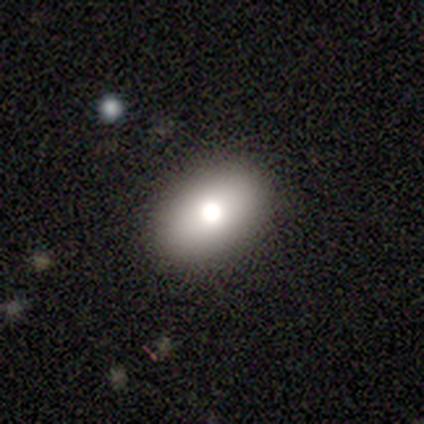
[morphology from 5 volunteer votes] smooth_or_featured: smooth (p=0.80) [alt: featured or disk p=0.20]
how_rounded: in between (p=1.00)
merging: none (p=1.00)